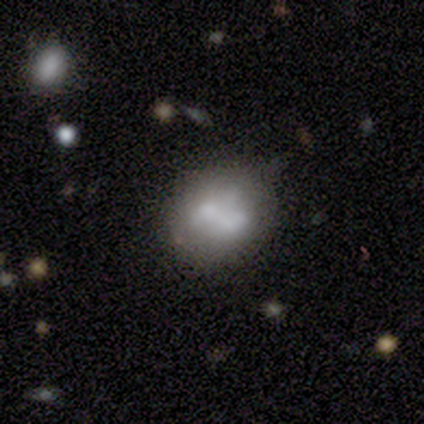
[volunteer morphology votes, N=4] Q: Smooth or featured?
A: smooth (75%); runner-up: featured or disk (25%)
Q: How rounded?
A: round (67%); runner-up: in between (33%)
Q: Merging?
A: none (100%)